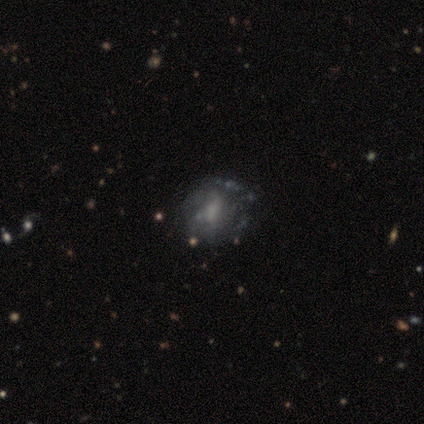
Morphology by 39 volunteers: A featured or disk galaxy (67%) with a weak bar (50%), medium (38%) spiral arms (50%, tied with no) and no central bulge (38%). Merging: none (50%).